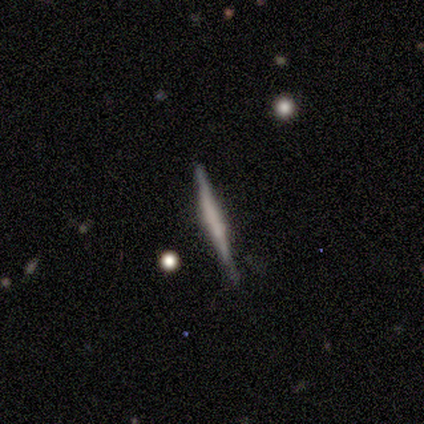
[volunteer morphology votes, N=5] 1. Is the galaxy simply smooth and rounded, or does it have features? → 60% featured or disk, 20% smooth, 20% star or artifact.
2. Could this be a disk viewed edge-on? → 100% yes, 0% no.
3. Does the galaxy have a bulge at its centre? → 67% none, 33% boxy, 0% rounded.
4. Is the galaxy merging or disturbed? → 75% none, 25% minor disturbance, 0% major disturbance, 0% merger.